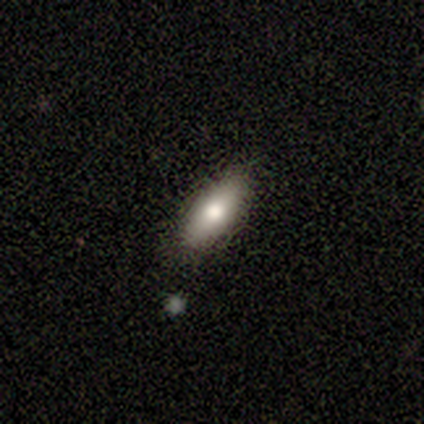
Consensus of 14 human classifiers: Q: Smooth or featured?
A: smooth (86%); runner-up: featured or disk (7%)
Q: How rounded?
A: in between (75%); runner-up: cigar-shaped (25%)
Q: Merging?
A: none (85%); runner-up: minor disturbance (15%)